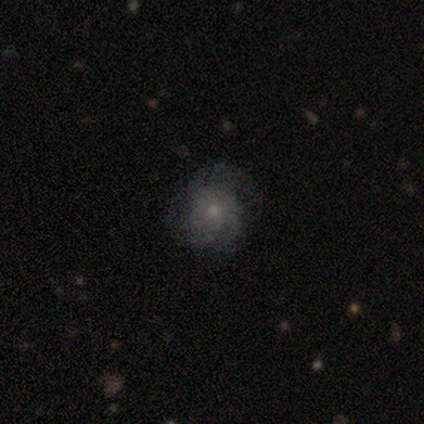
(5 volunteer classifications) Q: Smooth or featured?
A: featured or disk (60%); runner-up: smooth (40%)
Q: Edge-on disk?
A: no (67%); runner-up: yes (33%)
Q: Bar?
A: no (100%)
Q: Spiral arms?
A: no (100%)
Q: Bulge size?
A: moderate (50%); tied with: small (50%)
Q: Merging?
A: none (100%)